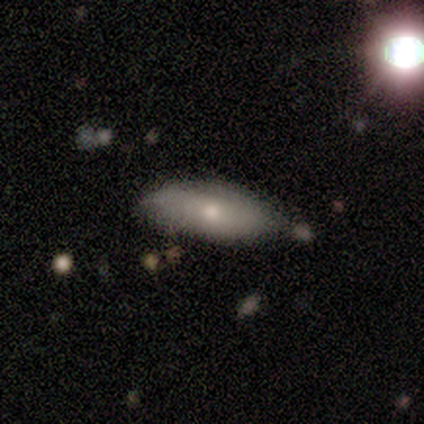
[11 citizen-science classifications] Volunteers were most divided on "how rounded" (2-way tie): in between: 50%, cigar-shaped: 50%, round: 0%. More confident: smooth or featured — smooth (73%); merging — none (70%).